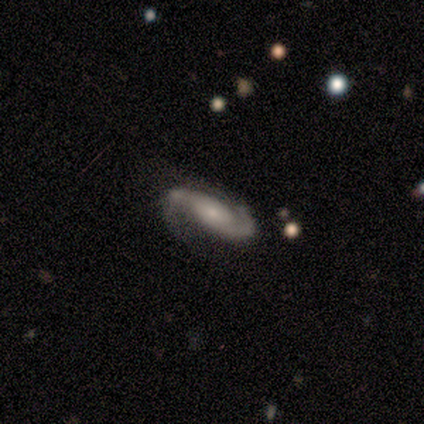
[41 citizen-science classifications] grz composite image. It shows a featured or disk galaxy (76%) with no bar (64%), 2 (93%) medium (43%) spiral arms (100%) and a small central bulge (64%). Merging: none (56%).